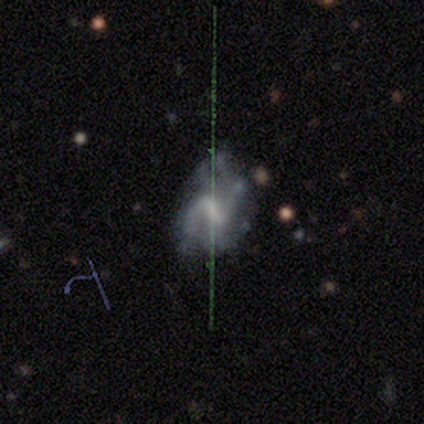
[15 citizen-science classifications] Smooth or featured: featured or disk — 73% (smooth — 20%)
Edge-on disk: no — 100%
Bar: weak — 55% (strong — 27%)
Spiral arms: yes — 73% (no — 27%)
Spiral winding: medium — 75% (tight — 12%)
Spiral arm count: 2 — 62% (4 — 25%)
Bulge size: moderate — 36% (small — 27%)
Merging: minor disturbance — 50% (major disturbance — 29%)